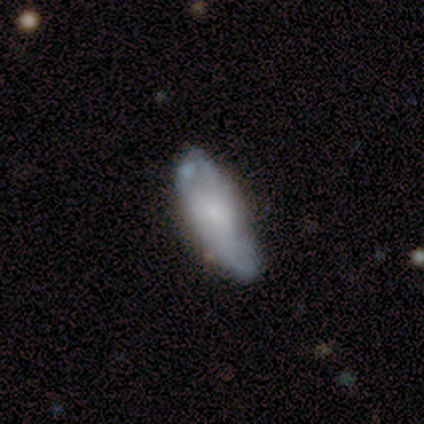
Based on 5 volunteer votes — Smooth or featured? featured or disk (60%)
Edge-on disk? no (100%)
Bar? weak (67%)
Spiral arms? no (100%)
Bulge size? moderate (67%)
Merging? none (80%)